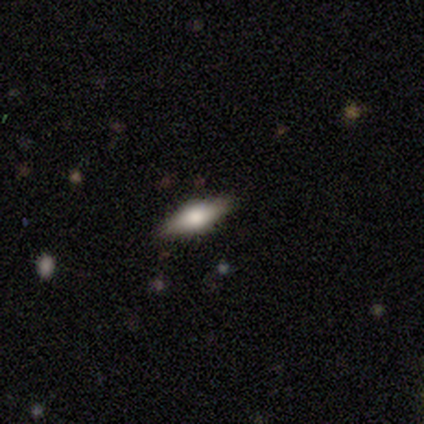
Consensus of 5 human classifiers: Smooth or featured? 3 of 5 (60%) said smooth. How rounded? 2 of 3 (67%) said cigar-shaped. Merging? 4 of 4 (100%) said none.